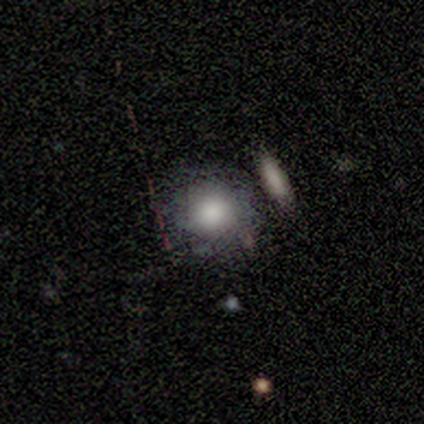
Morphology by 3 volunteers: Smooth or featured? 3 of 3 (100%) said smooth. How rounded? 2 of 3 (67%) said round. Merging? 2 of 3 (67%) said none.